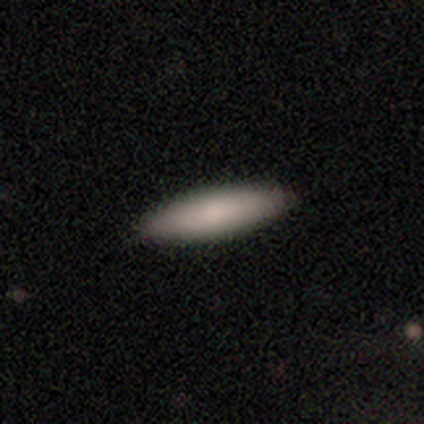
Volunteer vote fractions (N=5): A smooth galaxy with no disk features (100%) that is in between round and cigar-shaped (60%).

Vote fractions:
- Smooth or featured? smooth: 100% / featured or disk: 0% / star or artifact: 0%
- How rounded? in between: 60% / cigar-shaped: 40% / round: 0%
- Merging? none: 80% / major disturbance: 20% / minor disturbance: 0% / merger: 0%